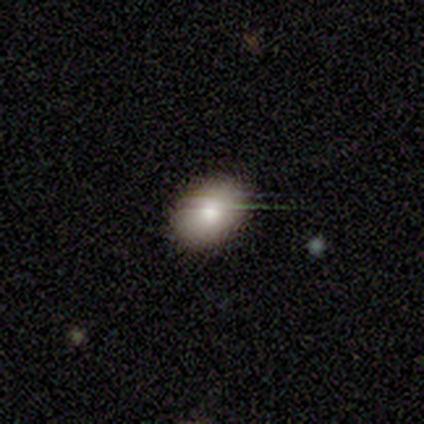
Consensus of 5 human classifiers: Smooth or featured: smooth — 100%
How rounded: in between — 80% (round — 20%)
Merging: none — 100%